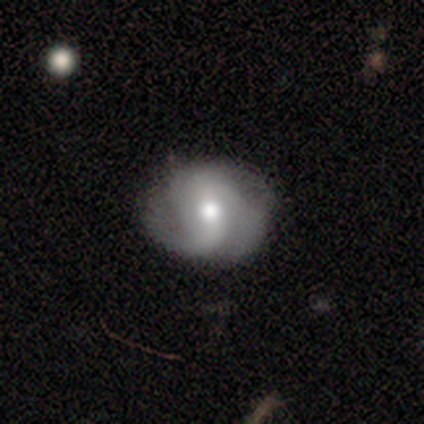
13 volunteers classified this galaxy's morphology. Smooth or featured? featured or disk (62%)
Edge-on disk? no (100%)
Bar? no (50%)
Spiral arms? yes (100%)
Spiral winding? medium (50%)
Spiral arm count? 2 (62%)
Bulge size? moderate (88%)
Merging? none (83%)